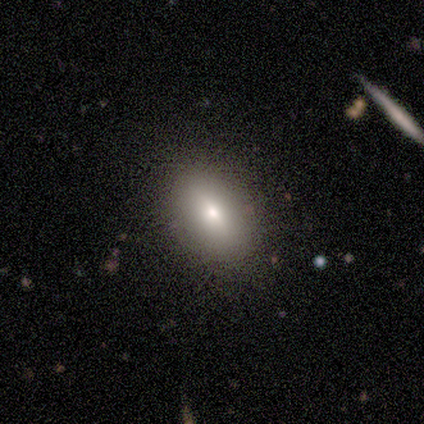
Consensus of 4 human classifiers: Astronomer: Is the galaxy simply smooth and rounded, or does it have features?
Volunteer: smooth — 50%.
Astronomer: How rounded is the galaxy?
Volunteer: in between — 100%.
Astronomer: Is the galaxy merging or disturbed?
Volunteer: none — 67%.